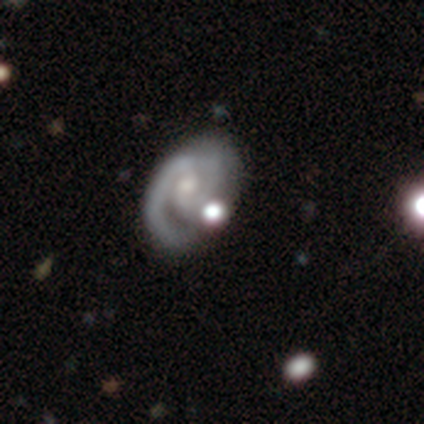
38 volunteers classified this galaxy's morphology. Smooth or featured: featured or disk — 79% (smooth — 13%)
Edge-on disk: no — 93% (yes — 7%)
Bar: no — 57% (weak — 25%)
Spiral arms: yes — 96% (no — 4%)
Spiral winding: medium — 48% (tight — 44%)
Spiral arm count: 2 — 59% (1 — 30%)
Bulge size: moderate — 46% (tied with small — 46%)
Merging: none — 31% (merger — 23%)